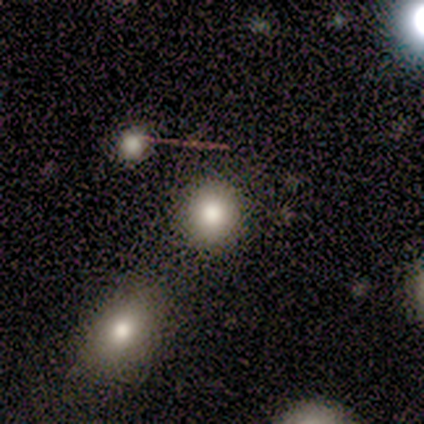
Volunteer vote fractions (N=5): Morphology: type=smooth (80%); roundness=round (100%); merging=none (60%).